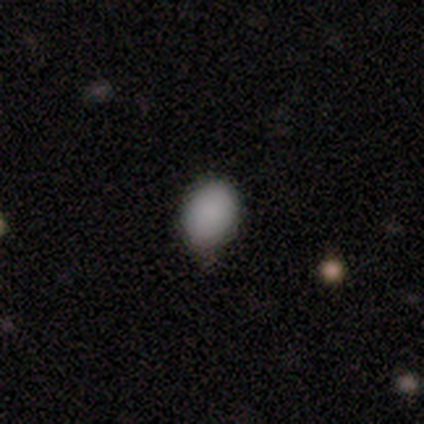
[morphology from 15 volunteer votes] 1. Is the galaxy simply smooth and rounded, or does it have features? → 93% smooth, 7% featured or disk, 0% star or artifact.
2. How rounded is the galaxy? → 57% in between, 43% round, 0% cigar-shaped.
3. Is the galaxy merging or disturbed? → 53% none, 47% minor disturbance, 0% major disturbance, 0% merger.